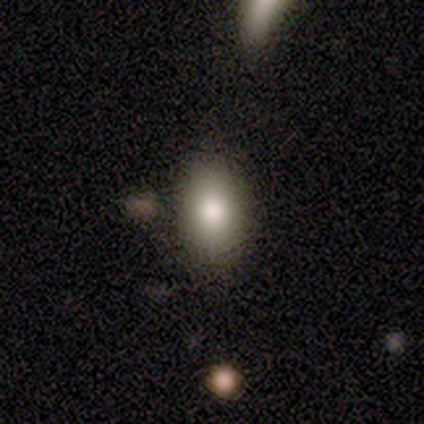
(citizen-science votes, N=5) Morphology: type=smooth (100%); roundness=in between (80%); merging=none (100%).